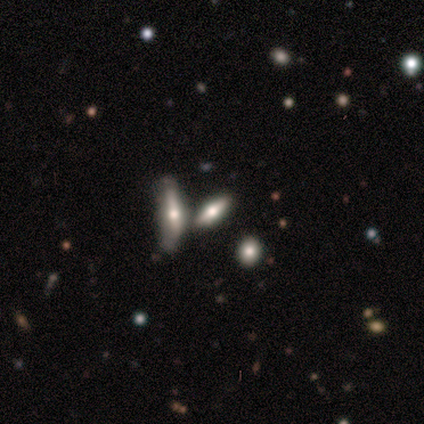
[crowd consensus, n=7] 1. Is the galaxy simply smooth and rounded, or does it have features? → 86% featured or disk, 14% smooth, 0% star or artifact.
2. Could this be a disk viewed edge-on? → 83% yes, 17% no.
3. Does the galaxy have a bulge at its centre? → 100% rounded, 0% boxy, 0% none.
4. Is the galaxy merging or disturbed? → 57% none, 29% merger, 14% major disturbance, 0% minor disturbance.